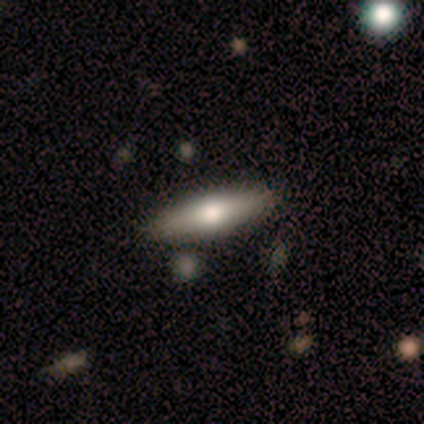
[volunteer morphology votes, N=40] Volunteers were most divided on "how rounded": cigar-shaped: 52%, in between: 48%, round: 0%. More confident: merging — none (90%); smooth or featured — smooth (57%).